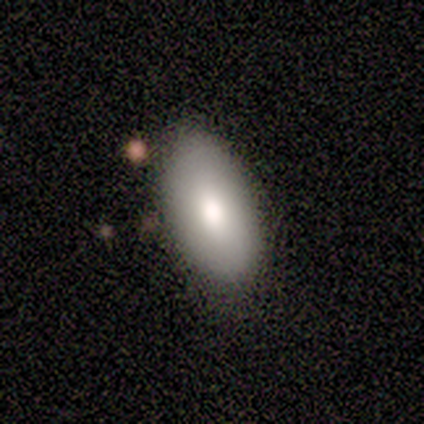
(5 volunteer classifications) Morphology: type=smooth (80%); roundness=in between (100%); merging=none (100%).